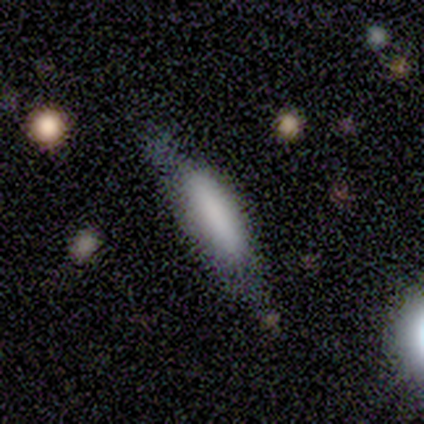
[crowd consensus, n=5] Smooth or featured? 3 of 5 (60%) said smooth. How rounded? 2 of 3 (67%) said cigar-shaped. Merging? 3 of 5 (60%) said minor disturbance.